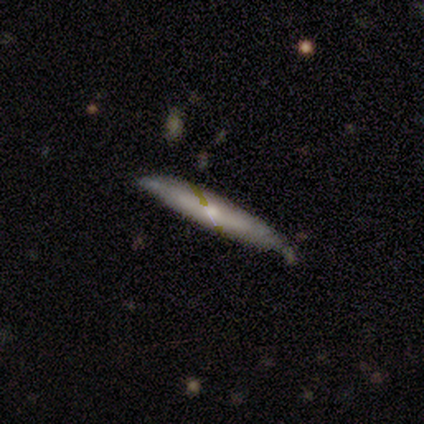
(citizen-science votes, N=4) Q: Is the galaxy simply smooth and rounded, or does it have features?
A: smooth — 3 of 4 (75%).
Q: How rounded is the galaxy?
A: cigar-shaped — 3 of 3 (100%).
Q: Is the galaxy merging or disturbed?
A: none — 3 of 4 (75%).